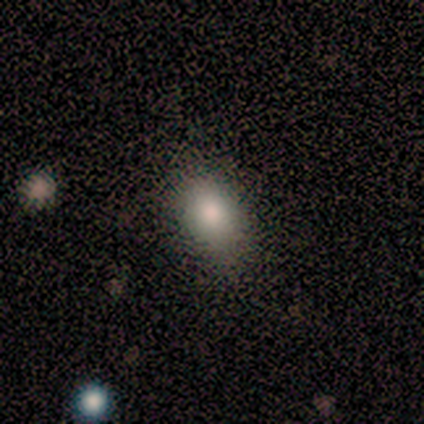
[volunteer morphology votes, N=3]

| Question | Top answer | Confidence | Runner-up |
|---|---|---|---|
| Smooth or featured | smooth | 67% | star or artifact (33%) |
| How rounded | round | 50% | tied: in between (50%) |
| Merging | none | 50% | tied: minor disturbance (50%) |